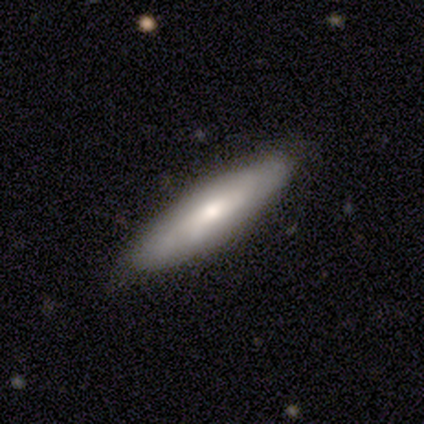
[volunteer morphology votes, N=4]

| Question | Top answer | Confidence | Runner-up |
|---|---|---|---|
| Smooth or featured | smooth | 75% | star or artifact (25%) |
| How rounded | in between | 67% | cigar-shaped (33%) |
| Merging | none | 100% | — |